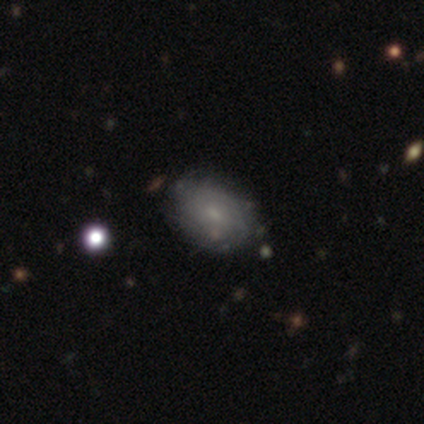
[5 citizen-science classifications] smooth 60%, featured or disk 40%, star or artifact 0%. Down the decision tree: how rounded — in between (100%); merging — none (100%).